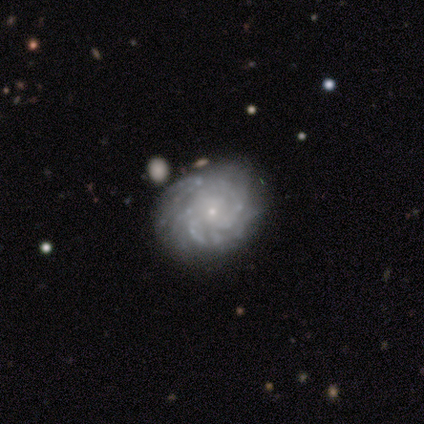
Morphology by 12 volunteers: smooth_or_featured: featured or disk (p=1.00)
disk_edge_on: no (p=1.00)
bar: no (p=0.83) [alt: weak p=0.17]
has_spiral_arms: yes (p=0.92) [alt: no p=0.08]
spiral_winding: tight (p=0.91) [alt: medium p=0.09]
spiral_arm_count: can't tell (p=0.55) [alt: 2 p=0.18]
bulge_size: small (p=0.92) [alt: large p=0.08]
merging: none (p=0.67) [alt: minor disturbance p=0.33]